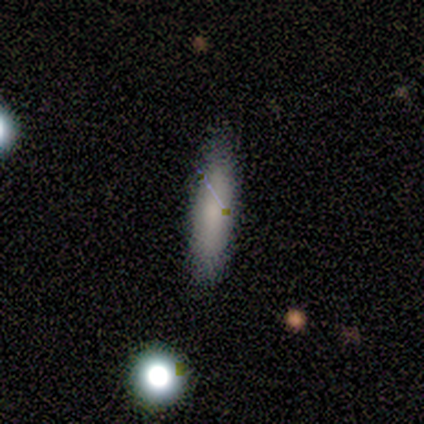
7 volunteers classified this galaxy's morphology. Volunteers were most divided on "merging": none: 86%, major disturbance: 14%, minor disturbance: 0%, merger: 0%. More confident: smooth or featured — smooth (100%); how rounded — cigar-shaped (100%).